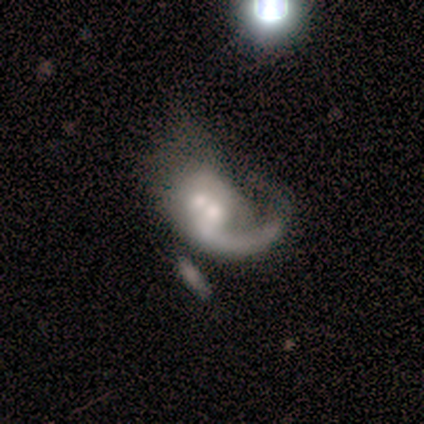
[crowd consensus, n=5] This is clearly a featured or disk galaxy (80%). It is clearly not viewed edge-on (100%). Bar: clearly no (100%). Spiral arm pattern: likely yes (75%). Spiral arm count: likely 1 (67%). Spiral winding: likely medium (67%). Central bulge: possibly moderate (50%). Merging: marginally major disturbance (40%, tied with merger).